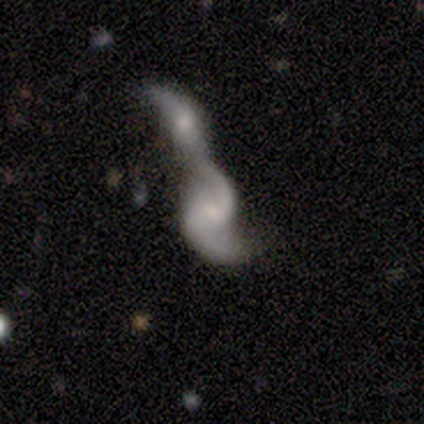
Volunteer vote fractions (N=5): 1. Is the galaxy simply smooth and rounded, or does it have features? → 100% featured or disk, 0% smooth, 0% star or artifact.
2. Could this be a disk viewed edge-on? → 100% no, 0% yes.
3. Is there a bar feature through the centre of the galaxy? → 80% no, 20% weak, 0% strong.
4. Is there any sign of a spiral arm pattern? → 100% yes, 0% no.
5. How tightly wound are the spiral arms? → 80% loose, 20% medium, 0% tight.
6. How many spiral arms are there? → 100% 2, 0% 1, 0% 3, 0% 4, 0% more than 4, 0% can't tell.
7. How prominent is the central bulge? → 60% moderate, 20% small, 20% none, 0% dominant, 0% large.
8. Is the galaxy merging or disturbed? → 100% merger, 0% none, 0% minor disturbance, 0% major disturbance.